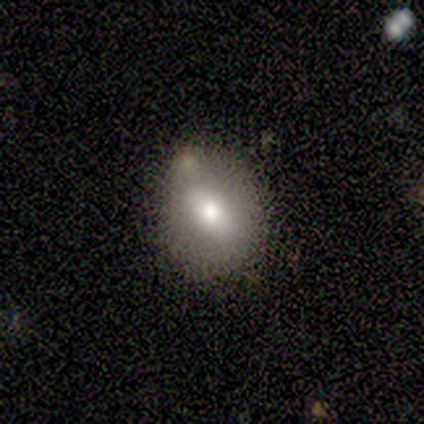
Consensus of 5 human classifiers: Smooth or featured? 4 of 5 (80%) said smooth. How rounded? 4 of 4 (100%) said in between. Merging? 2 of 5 (40%, tied with merger) said none.